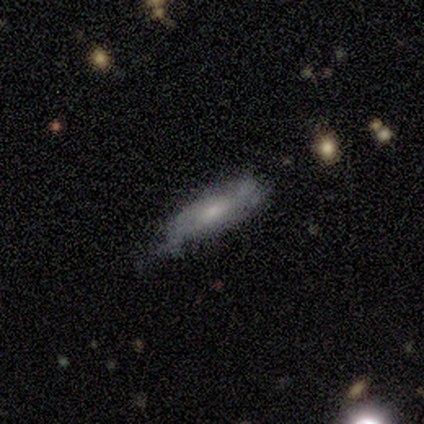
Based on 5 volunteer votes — Q: Smooth or featured?
A: featured or disk (60%); runner-up: smooth (20%)
Q: Edge-on disk?
A: no (100%)
Q: Bar?
A: no (100%)
Q: Spiral arms?
A: no (67%); runner-up: yes (33%)
Q: Bulge size?
A: small (100%)
Q: Merging?
A: none (50%); tied with: minor disturbance (50%)